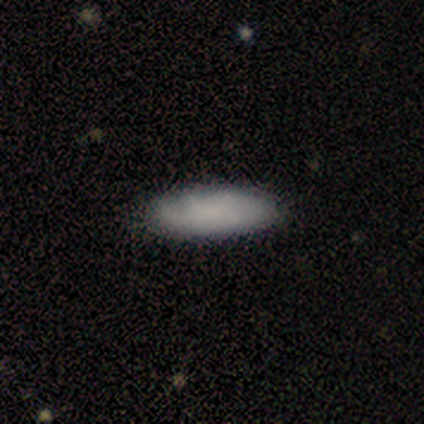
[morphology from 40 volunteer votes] Volunteers were most divided on "smooth or featured": smooth: 68%, featured or disk: 28%, star or artifact: 5%. More confident: how rounded — in between (85%); merging — none (61%).